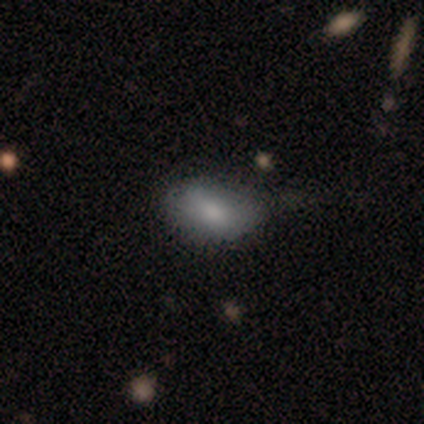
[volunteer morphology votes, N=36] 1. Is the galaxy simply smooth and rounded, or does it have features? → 81% smooth, 14% featured or disk, 6% star or artifact.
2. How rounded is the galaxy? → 83% in between, 17% round, 0% cigar-shaped.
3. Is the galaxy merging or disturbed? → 59% none, 35% minor disturbance, 6% major disturbance, 0% merger.